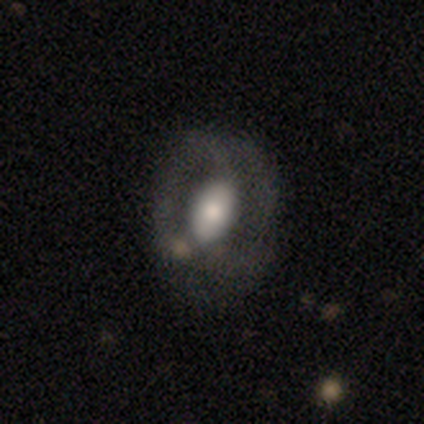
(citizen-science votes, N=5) Smooth or featured? featured or disk (100%)
Edge-on disk? no (100%)
Bar? no (60%)
Spiral arms? no (60%)
Bulge size? large (60%)
Merging? minor disturbance (60%)